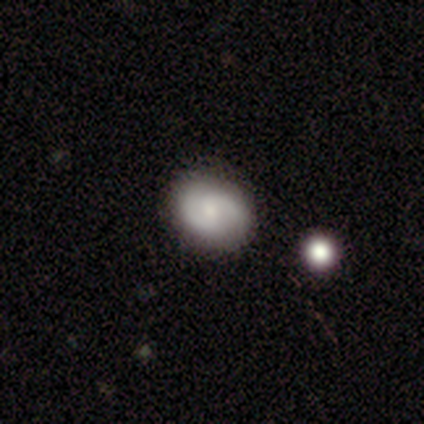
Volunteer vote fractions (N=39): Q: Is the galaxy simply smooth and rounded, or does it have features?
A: featured or disk — 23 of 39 (59%).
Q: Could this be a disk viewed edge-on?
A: no — 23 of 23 (100%).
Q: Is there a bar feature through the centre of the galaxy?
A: no — 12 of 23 (52%).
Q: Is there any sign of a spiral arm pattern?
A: yes — 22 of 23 (96%).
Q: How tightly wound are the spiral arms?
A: medium — 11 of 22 (50%).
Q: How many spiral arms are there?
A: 2 — 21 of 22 (95%).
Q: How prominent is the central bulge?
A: small — 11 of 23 (48%).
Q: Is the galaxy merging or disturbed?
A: none — 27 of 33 (82%).